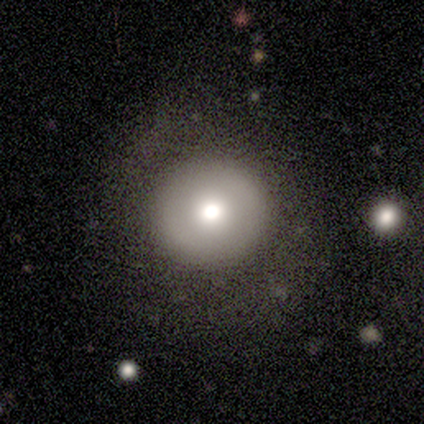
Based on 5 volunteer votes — Q: Smooth or featured?
A: smooth (60%); runner-up: featured or disk (40%)
Q: How rounded?
A: round (100%)
Q: Merging?
A: none (100%)